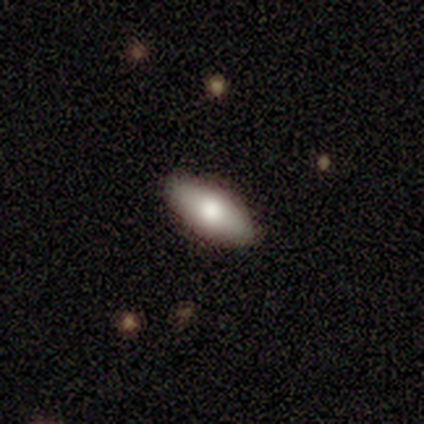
This is clearly a smooth galaxy (80%). How rounded: likely in between (75%). Merging: clearly none (80%).